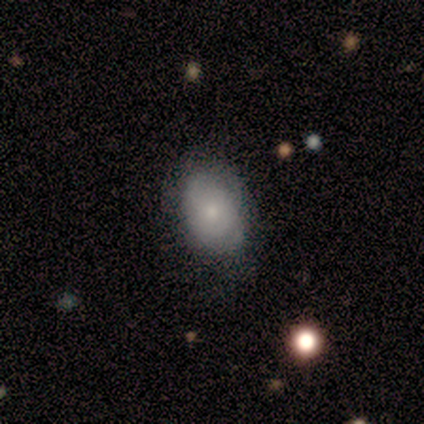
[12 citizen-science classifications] This is likely a smooth galaxy (67%). How rounded: clearly in between (88%). Merging: possibly none (50%, tied with minor disturbance).